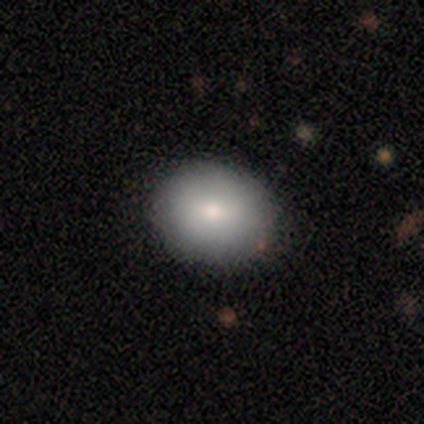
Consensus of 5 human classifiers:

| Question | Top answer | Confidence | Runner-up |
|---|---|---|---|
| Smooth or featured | smooth | 80% | featured or disk (20%) |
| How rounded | round | 100% | — |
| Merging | none | 60% | minor disturbance (40%) |